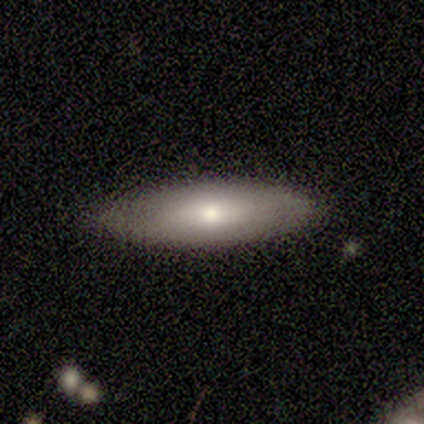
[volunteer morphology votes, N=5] Overall: featured or disk (60%; smooth 40%). Edge-on disk: no (67%; yes 33%). Bar: no (100%). Spiral arms: yes (50%, tied with no). Spiral arm count: 2 (100%). Spiral winding: tight (100%). Bulge size: moderate (50%, tied with small). Merging: none (100%).